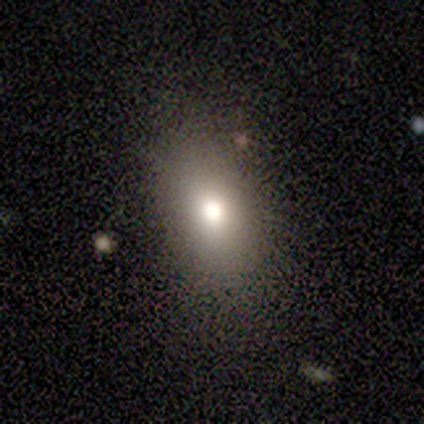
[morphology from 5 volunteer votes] Smooth or featured: smooth — 40% (tied with star or artifact — 40%)
How rounded: in between — 50% (tied with cigar-shaped — 50%)
Merging: none — 100%